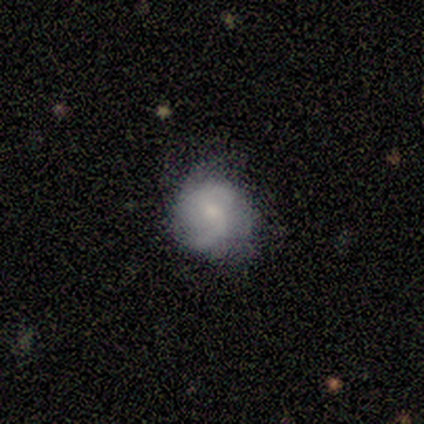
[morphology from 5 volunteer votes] This appears to be a smooth galaxy with no disk features (40%, tied with featured or disk) that is round (100%). Merging: minor disturbance (50%).